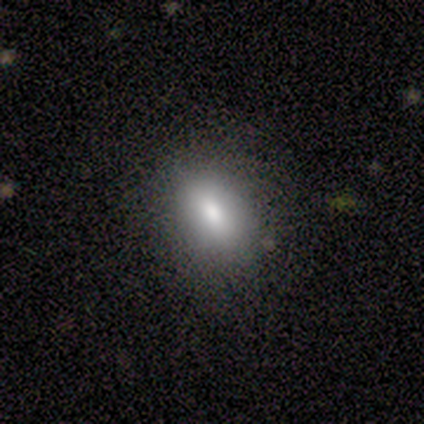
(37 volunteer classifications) Smooth or featured?
  - smooth: 84% *
  - featured or disk: 14%
  - star or artifact: 3%
How rounded?
  - in between: 65% *
  - round: 32%
  - cigar-shaped: 3%
Merging?
  - none: 81% *
  - minor disturbance: 14%
  - major disturbance: 3%
  - merger: 3%